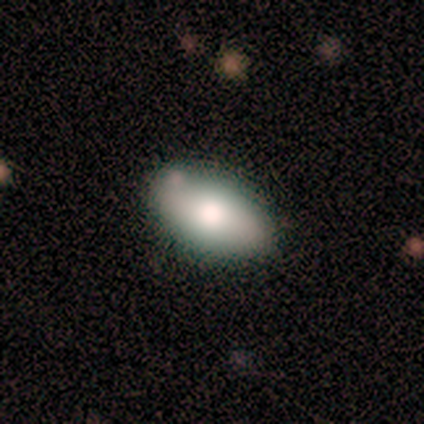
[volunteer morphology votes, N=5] smooth_or_featured: smooth (p=0.80) [alt: featured or disk p=0.20]
how_rounded: in between (p=1.00)
merging: none (p=1.00)